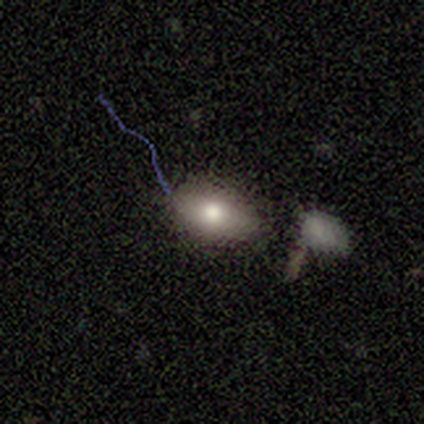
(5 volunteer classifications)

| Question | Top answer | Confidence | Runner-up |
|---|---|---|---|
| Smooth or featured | featured or disk | 60% | smooth (40%) |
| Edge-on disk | no | 100% | — |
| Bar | no | 100% | — |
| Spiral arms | no | 100% | — |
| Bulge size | moderate | 100% | — |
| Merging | none | 80% | minor disturbance (20%) |